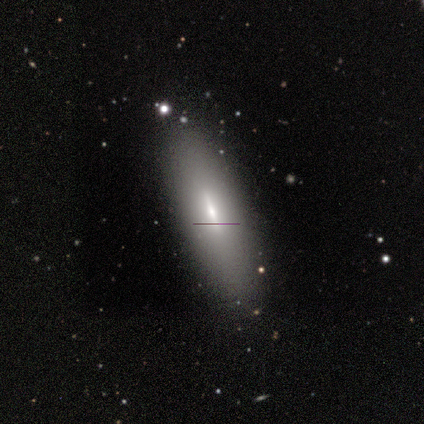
smooth_or_featured: smooth (p=0.80) [alt: featured or disk p=0.20]
how_rounded: in between (p=0.75) [alt: cigar-shaped p=0.25]
merging: none (p=0.80) [alt: minor disturbance p=0.20]